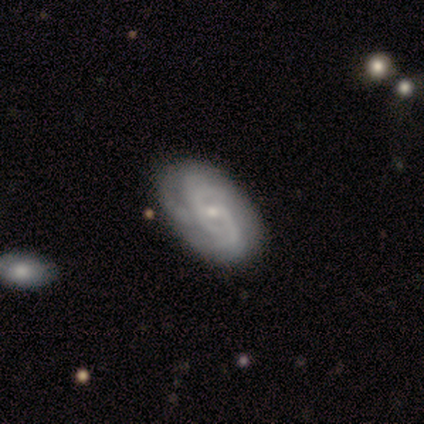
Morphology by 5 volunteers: Q: Smooth or featured?
A: featured or disk (100%)
Q: Edge-on disk?
A: no (100%)
Q: Bar?
A: no (80%); runner-up: weak (20%)
Q: Spiral arms?
A: yes (100%)
Q: Spiral winding?
A: tight (80%); runner-up: medium (20%)
Q: Spiral arm count?
A: 2 (40%); tied with: can't tell (40%)
Q: Bulge size?
A: small (100%)
Q: Merging?
A: none (80%); runner-up: minor disturbance (20%)